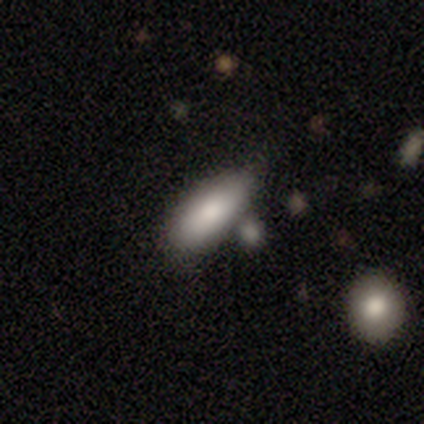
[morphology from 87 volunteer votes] Smooth or featured: smooth — 83% (featured or disk — 11%)
How rounded: in between — 82% (cigar-shaped — 18%)
Merging: none — 54% (minor disturbance — 29%)